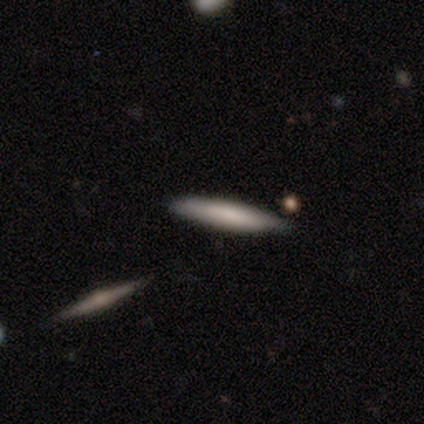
Morphology: type=smooth (80%); roundness=cigar-shaped (100%); merging=none (100%).